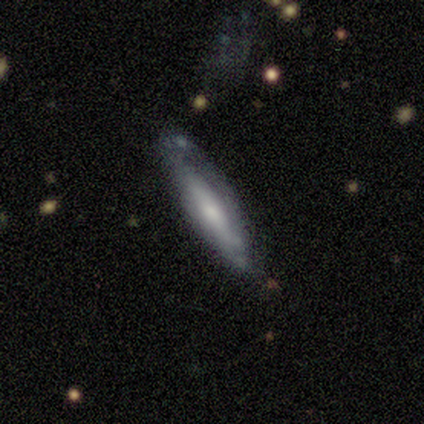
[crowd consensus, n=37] Smooth or featured? 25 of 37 (68%) said featured or disk. Edge-on disk? 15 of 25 (60%) said yes. Edge-on bulge? 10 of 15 (67%) said rounded. Merging? 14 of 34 (41%, tied with minor disturbance) said none.